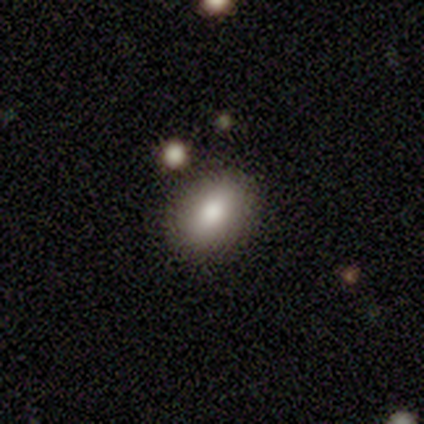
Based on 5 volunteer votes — Smooth or featured? smooth (100%)
How rounded? in between (60%)
Merging? none (100%)